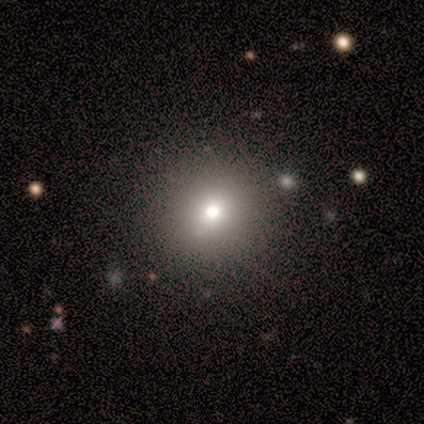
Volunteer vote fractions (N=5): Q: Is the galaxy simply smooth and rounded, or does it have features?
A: smooth — 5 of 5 (100%).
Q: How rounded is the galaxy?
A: round — 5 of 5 (100%).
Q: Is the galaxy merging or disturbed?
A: none — 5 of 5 (100%).